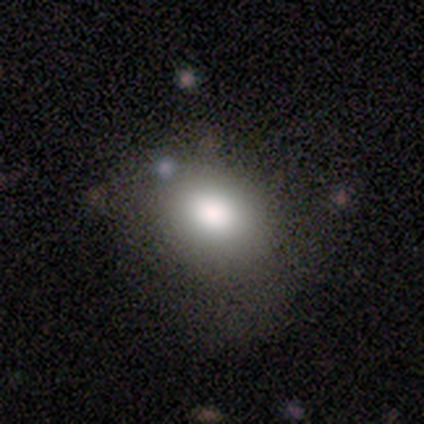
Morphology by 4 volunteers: Smooth or featured? 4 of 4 (100%) said smooth. How rounded? 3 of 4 (75%) said in between. Merging? 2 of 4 (50%) said major disturbance.